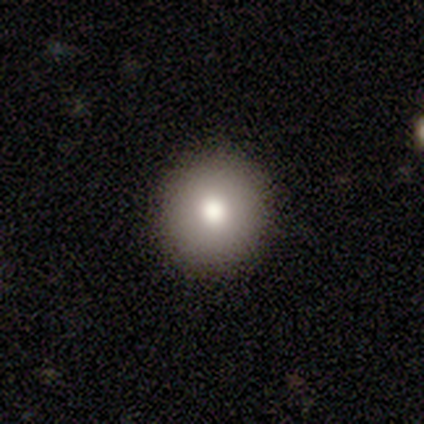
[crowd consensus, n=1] A smooth galaxy with no disk features (100%) that is round (100%).

Vote fractions:
- Smooth or featured? smooth: 100% / featured or disk: 0% / star or artifact: 0%
- How rounded? round: 100% / in between: 0% / cigar-shaped: 0%
- Merging? none: 100% / minor disturbance: 0% / major disturbance: 0% / merger: 0%